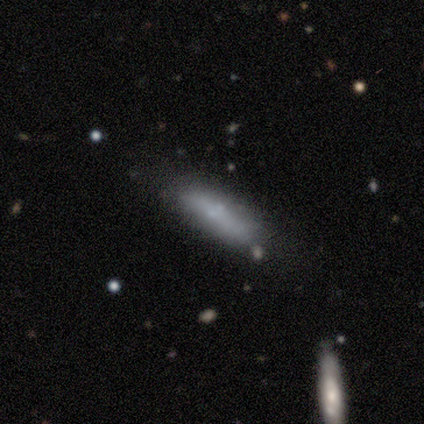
Volunteers were most divided on "how rounded": cigar-shaped: 75%, in between: 25%, round: 0%. More confident: smooth or featured — smooth (100%); merging — none (100%).